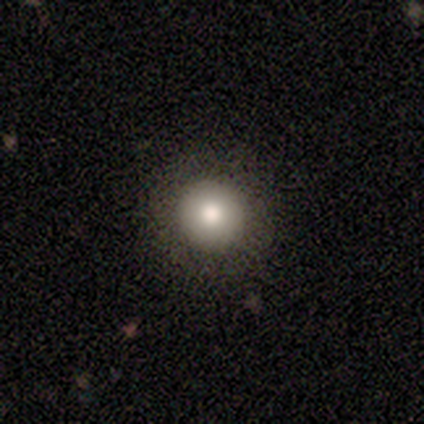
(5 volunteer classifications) Overall: smooth (60%; featured or disk 20%). How rounded: round (100%). Merging: none (100%).